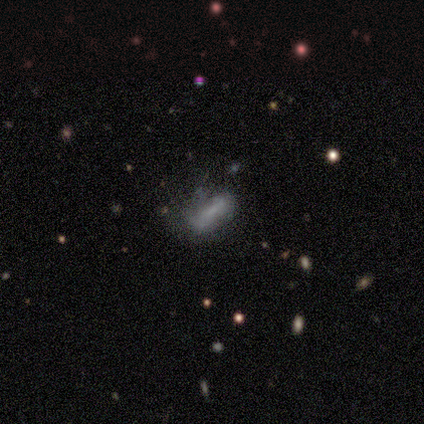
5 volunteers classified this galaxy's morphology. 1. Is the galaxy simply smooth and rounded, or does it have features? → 60% smooth, 20% featured or disk, 20% star or artifact.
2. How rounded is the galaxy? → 100% cigar-shaped, 0% round, 0% in between.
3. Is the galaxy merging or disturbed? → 75% minor disturbance, 25% none, 0% major disturbance, 0% merger.